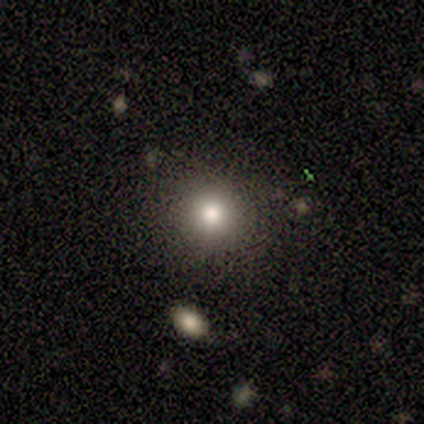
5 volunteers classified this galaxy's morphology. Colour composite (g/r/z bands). It shows a smooth galaxy with no disk features (100%) that is round (100%). Merging: none (100%).